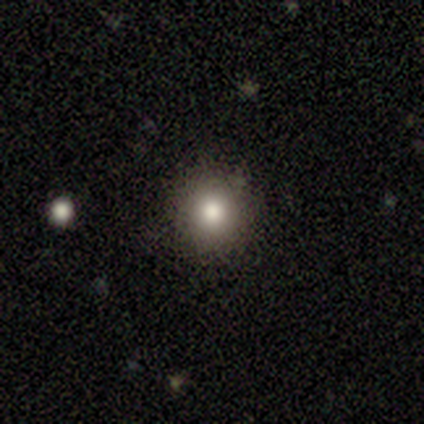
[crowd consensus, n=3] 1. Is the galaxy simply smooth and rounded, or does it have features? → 100% smooth, 0% featured or disk, 0% star or artifact.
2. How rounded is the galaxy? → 67% round, 33% in between, 0% cigar-shaped.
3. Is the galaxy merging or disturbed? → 100% none, 0% minor disturbance, 0% major disturbance, 0% merger.